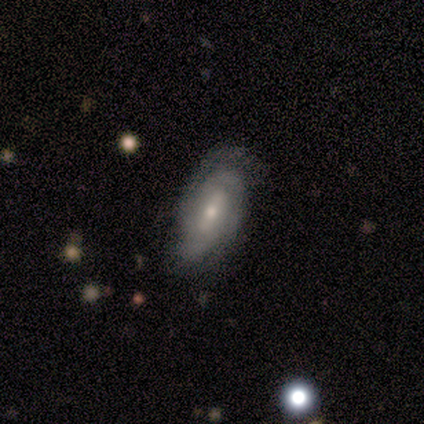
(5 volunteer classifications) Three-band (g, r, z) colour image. It shows a featured or disk galaxy (80%) with no bar (75%), 2 (50%, tied with can't tell) tight (75%) spiral arms (100%) and a moderate central bulge (50%, tied with small). Merging: none (80%).